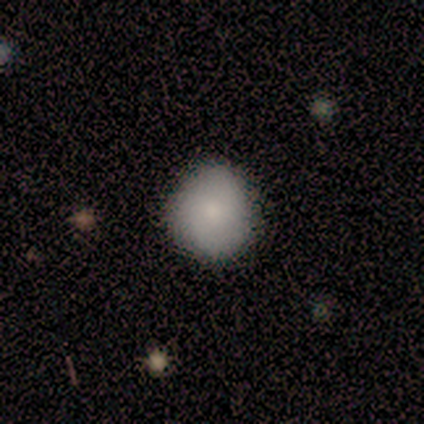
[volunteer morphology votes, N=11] Smooth or featured?
  - smooth: 82% *
  - featured or disk: 18%
  - star or artifact: 0%
How rounded?
  - round: 78% *
  - in between: 22%
  - cigar-shaped: 0%
Merging?
  - none: 91% *
  - minor disturbance: 9%
  - major disturbance: 0%
  - merger: 0%